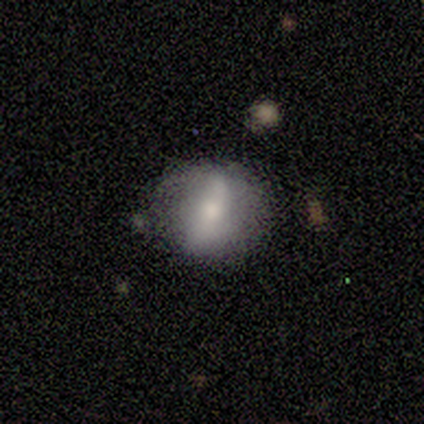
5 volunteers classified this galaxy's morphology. This is clearly a featured or disk galaxy (80%). It is likely not viewed edge-on (75%). Bar: clearly strong (100%). Spiral arm pattern: likely yes (67%). Spiral arm count: clearly 2 (100%). Spiral winding: possibly tight (50%, tied with loose). Central bulge: clearly moderate (100%). Merging: clearly none (80%).